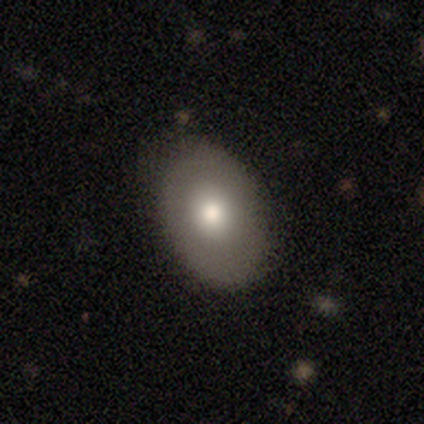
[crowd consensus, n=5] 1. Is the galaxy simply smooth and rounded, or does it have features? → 80% smooth, 20% featured or disk, 0% star or artifact.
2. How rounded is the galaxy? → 100% in between, 0% round, 0% cigar-shaped.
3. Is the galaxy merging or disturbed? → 100% none, 0% minor disturbance, 0% major disturbance, 0% merger.